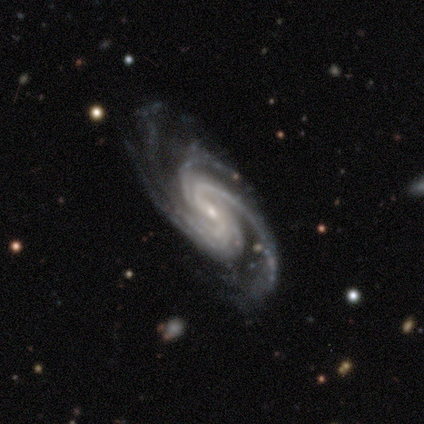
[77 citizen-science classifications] smooth-or-featured: featured or disk: 97% | smooth: 3% | star or artifact: 0%
  disk-edge-on: no: 95% | yes: 5%
    bar: weak: 48% | no: 27% | strong: 25%
    has-spiral-arms: yes: 99% | no: 1%
      spiral-winding: medium: 61% | tight: 31% | loose: 7%
      spiral-arm-count: 2: 33% | 4: 31% | 3: 23% | can't tell: 9% | more than 4: 4% | 1: 0%
    bulge-size: small: 83% | moderate: 13% | none: 3% | large: 1% | dominant: 0%
  merging: none: 35% | minor disturbance: 9% | major disturbance: 8% | merger: 1%